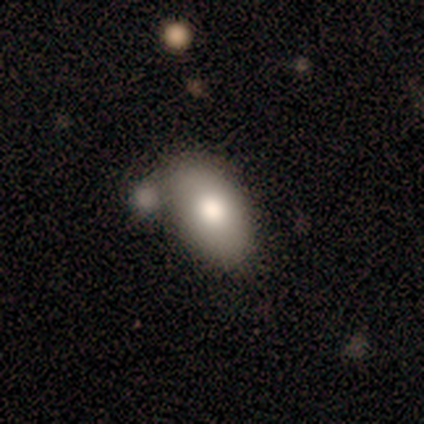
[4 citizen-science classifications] Smooth or featured: smooth — 100%
How rounded: in between — 100%
Merging: merger — 50% (minor disturbance — 25%)